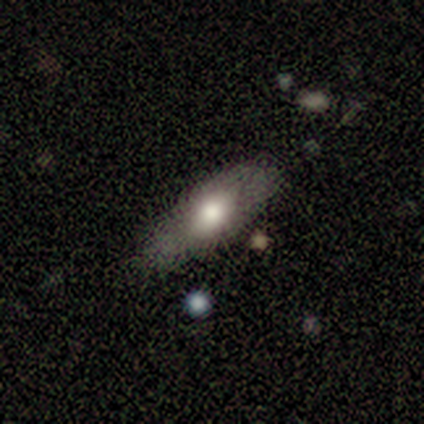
Smooth or featured? 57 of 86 (66%) said smooth. How rounded? 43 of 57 (75%) said in between. Merging? 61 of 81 (75%) said none.